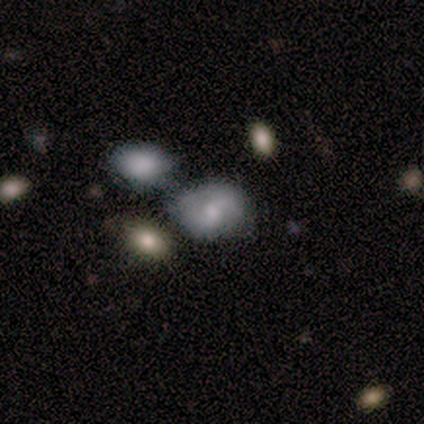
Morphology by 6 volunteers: Smooth or featured? featured or disk (67%)
Edge-on disk? no (75%)
Bar? strong (33%, tied with weak and no)
Spiral arms? yes (100%)
Spiral winding? medium (67%)
Spiral arm count? 2 (67%)
Bulge size? moderate (67%)
Merging? none (50%, tied with merger)